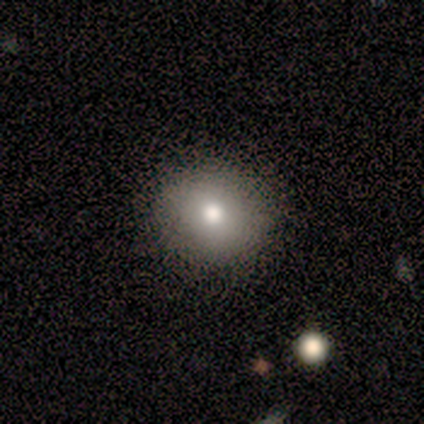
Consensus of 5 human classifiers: Smooth or featured? smooth (100%)
How rounded? round (100%)
Merging? none (80%)